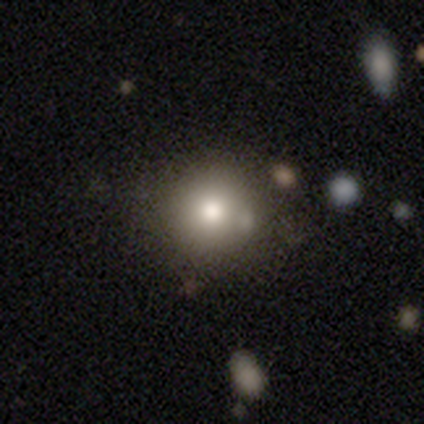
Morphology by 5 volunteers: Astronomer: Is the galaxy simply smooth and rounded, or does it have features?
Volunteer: smooth — 100%.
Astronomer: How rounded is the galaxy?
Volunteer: round — 80%.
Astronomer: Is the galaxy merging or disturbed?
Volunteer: none — 80%.